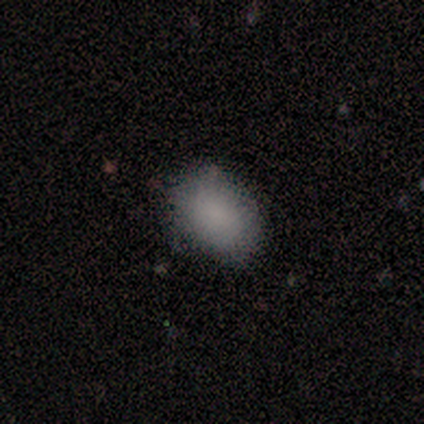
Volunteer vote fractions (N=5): Q: Smooth or featured?
A: smooth (80%); runner-up: star or artifact (20%)
Q: How rounded?
A: round (50%); tied with: in between (50%)
Q: Merging?
A: none (50%); runner-up: minor disturbance (25%)